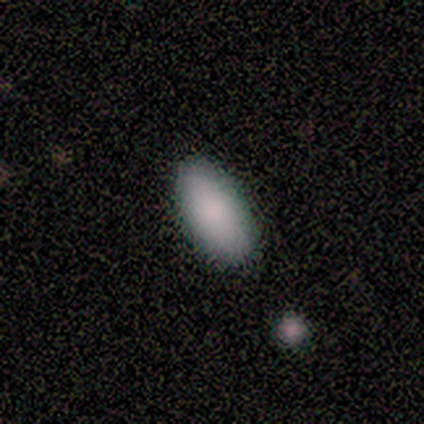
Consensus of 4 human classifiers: Smooth or featured?
  - smooth: 100% *
  - featured or disk: 0%
  - star or artifact: 0%
How rounded?
  - in between: 100% *
  - round: 0%
  - cigar-shaped: 0%
Merging?
  - none: 50% * (tied)
  - minor disturbance: 50% * (tied)
  - major disturbance: 0%
  - merger: 0%